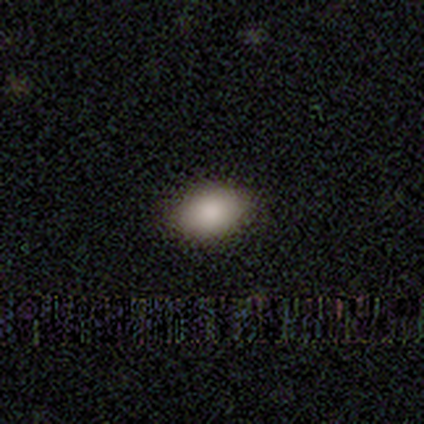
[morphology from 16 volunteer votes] Volunteers were most divided on "how rounded": in between: 81%, round: 19%, cigar-shaped: 0%. More confident: smooth or featured — smooth (100%); merging — none (94%).